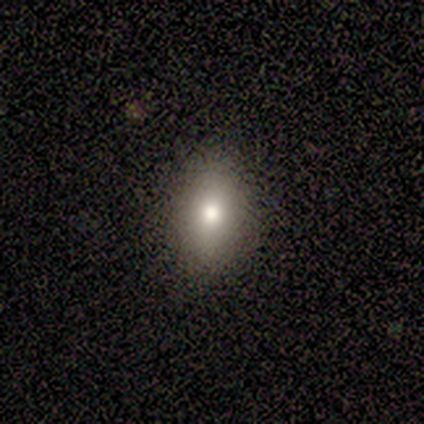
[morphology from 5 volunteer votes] Smooth or featured: smooth — 80% (featured or disk — 20%)
How rounded: in between — 100%
Merging: none — 100%